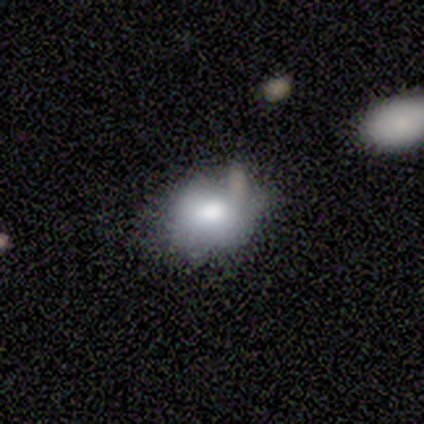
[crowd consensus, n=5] A smooth galaxy with no disk features (60%) that is in between round and cigar-shaped (100%).

Vote fractions:
- Smooth or featured? smooth: 60% / featured or disk: 40% / star or artifact: 0%
- How rounded? in between: 100% / round: 0% / cigar-shaped: 0%
- Merging? none: 80% / minor disturbance: 20% / major disturbance: 0% / merger: 0%